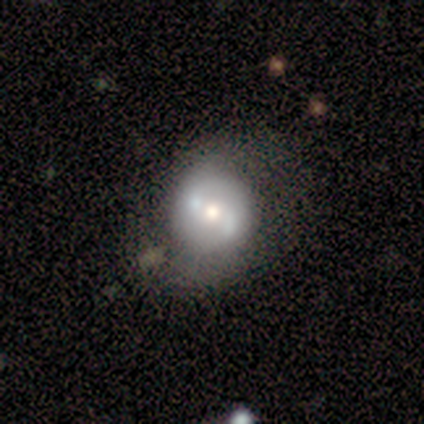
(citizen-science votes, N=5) Q: Smooth or featured?
A: featured or disk (80%); runner-up: smooth (20%)
Q: Edge-on disk?
A: no (100%)
Q: Bar?
A: weak (50%); tied with: no (50%)
Q: Spiral arms?
A: yes (75%); runner-up: no (25%)
Q: Spiral winding?
A: loose (100%)
Q: Spiral arm count?
A: 2 (100%)
Q: Bulge size?
A: moderate (75%); runner-up: small (25%)
Q: Merging?
A: none (80%); runner-up: major disturbance (20%)